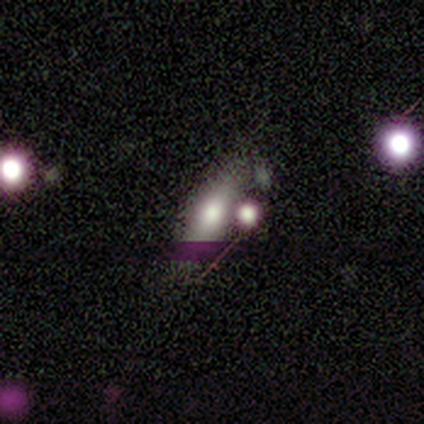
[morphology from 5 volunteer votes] A smooth galaxy with no disk features (60%) that is cigar-shaped (67%). Merging: none (80%).